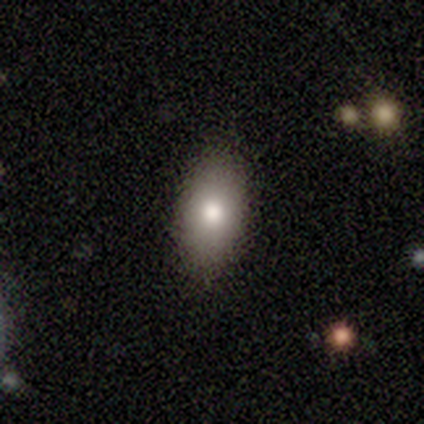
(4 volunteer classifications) This appears to be a smooth galaxy with no disk features (75%) that is in between round and cigar-shaped (100%). Merging: none (100%).